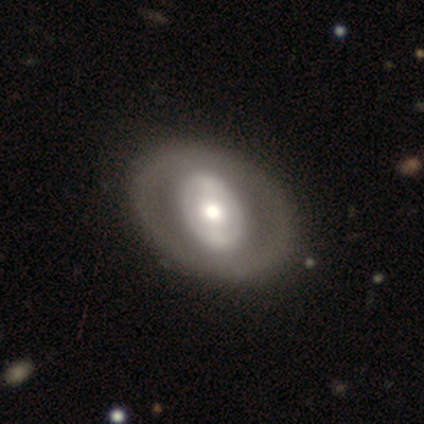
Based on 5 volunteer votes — Smooth or featured? smooth (60%)
How rounded? in between (67%)
Merging? none (100%)